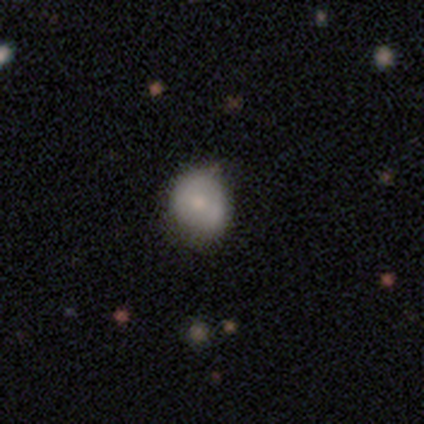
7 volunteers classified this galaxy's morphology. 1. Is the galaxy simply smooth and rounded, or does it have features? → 71% smooth, 29% featured or disk, 0% star or artifact.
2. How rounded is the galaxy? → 80% round, 20% in between, 0% cigar-shaped.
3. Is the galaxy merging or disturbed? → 86% none, 14% minor disturbance, 0% major disturbance, 0% merger.